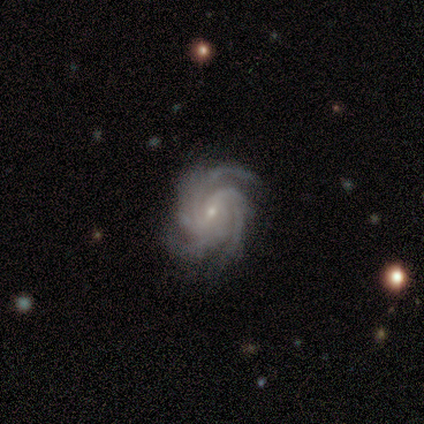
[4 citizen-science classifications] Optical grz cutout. It shows a featured or disk galaxy (100%) with no bar (75%), 4 (75%) tight (75%) spiral arms (100%) and a small central bulge (100%). Merging: none (75%).